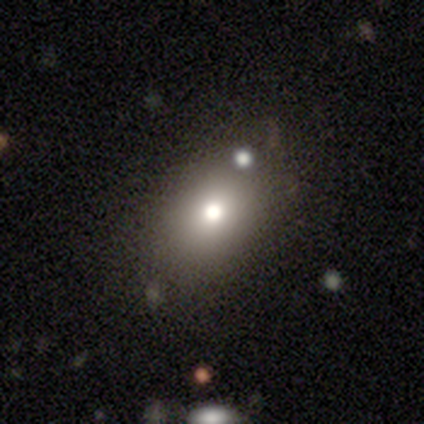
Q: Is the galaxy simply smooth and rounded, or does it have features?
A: smooth — 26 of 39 (67%).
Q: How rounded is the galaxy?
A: in between — 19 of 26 (73%).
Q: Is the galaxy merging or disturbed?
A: none — 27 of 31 (87%).